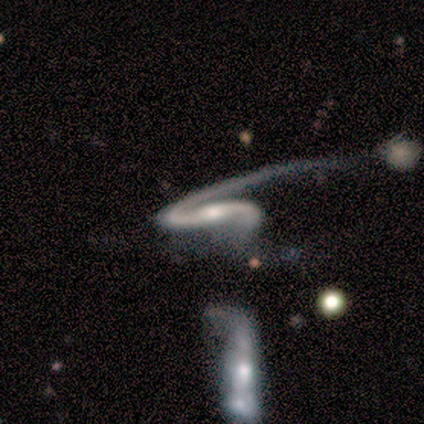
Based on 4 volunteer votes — A featured or disk galaxy (100%) with a weak bar (50%), 2 (100%) medium (50%, tied with loose) spiral arms (100%) and a moderate central bulge (75%).

Vote fractions:
- Smooth or featured? featured or disk: 100% / smooth: 0% / star or artifact: 0%
- Edge-on disk? no: 100% / yes: 0%
- Bar? weak: 50% / strong: 25% / no: 25%
- Spiral arms? yes: 100% / no: 0%
- Spiral winding? medium: 50% (tied) / loose: 50% (tied) / tight: 0%
- Spiral arm count? 2: 100% / 1: 0% / 3: 0% / 4: 0% / more than 4: 0% / can't tell: 0%
- Bulge size? moderate: 75% / small: 25% / dominant: 0% / large: 0% / none: 0%
- Merging? minor disturbance: 50% / none: 25% / merger: 25% / major disturbance: 0%